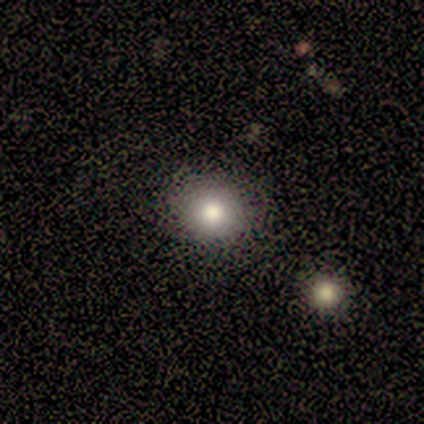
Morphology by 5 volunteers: smooth_or_featured: smooth (p=1.00)
how_rounded: round (p=1.00)
merging: none (p=1.00)